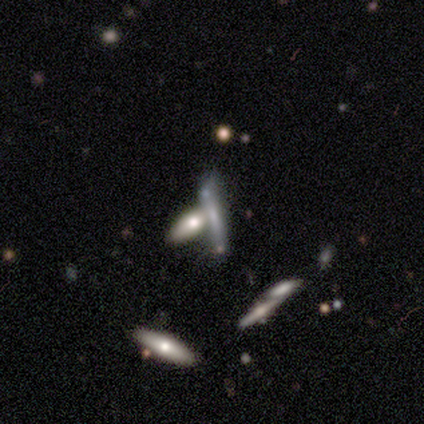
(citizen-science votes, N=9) Smooth or featured? 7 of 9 (78%) said smooth. How rounded? 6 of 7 (86%) said cigar-shaped. Merging? 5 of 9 (56%) said merger.